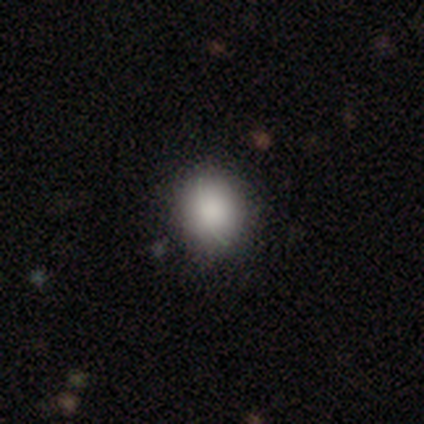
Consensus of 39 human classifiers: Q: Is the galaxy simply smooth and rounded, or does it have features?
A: smooth — 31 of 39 (79%).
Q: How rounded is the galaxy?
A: round — 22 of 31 (71%).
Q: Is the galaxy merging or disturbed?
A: none — 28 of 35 (80%).